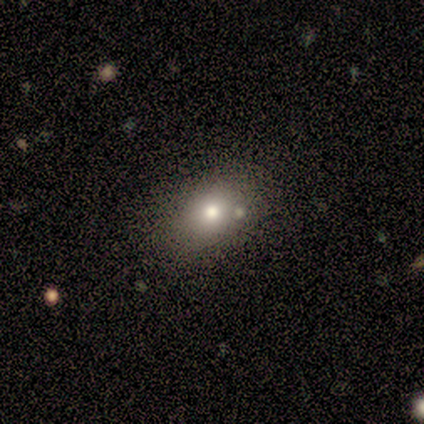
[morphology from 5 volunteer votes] Smooth or featured? smooth (60%)
How rounded? round (67%)
Merging? none (100%)